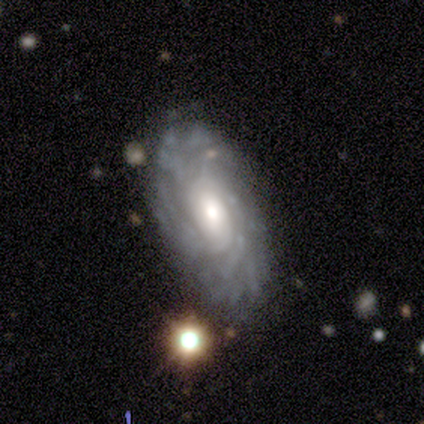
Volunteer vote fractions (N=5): A featured or disk galaxy (80%) with no bar (75%), tight (67%) spiral arms (75%) and a moderate central bulge (50%). Merging: none (80%).